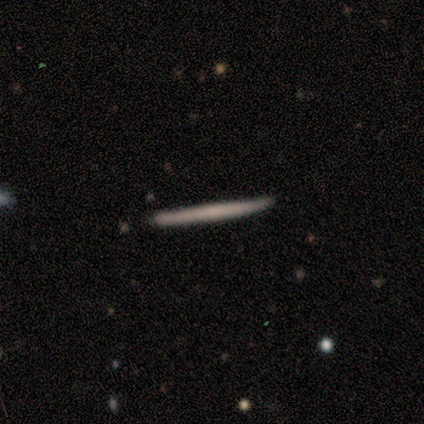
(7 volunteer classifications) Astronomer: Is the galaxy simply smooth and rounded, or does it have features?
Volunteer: featured or disk — 57%.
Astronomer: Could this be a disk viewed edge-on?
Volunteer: yes — 100%.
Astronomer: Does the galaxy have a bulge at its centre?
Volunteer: none — 75%.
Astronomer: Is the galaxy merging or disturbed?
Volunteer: none — 83%.